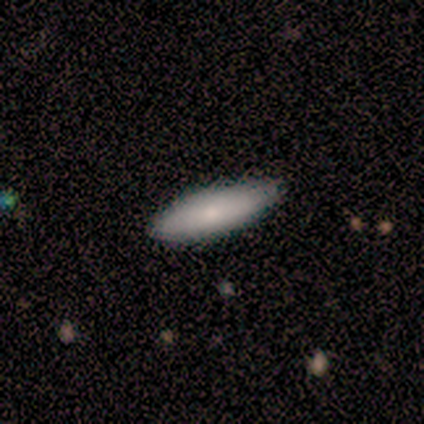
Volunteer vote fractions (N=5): Smooth or featured? 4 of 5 (80%) said smooth. How rounded? 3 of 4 (75%) said cigar-shaped. Merging? 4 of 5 (80%) said none.